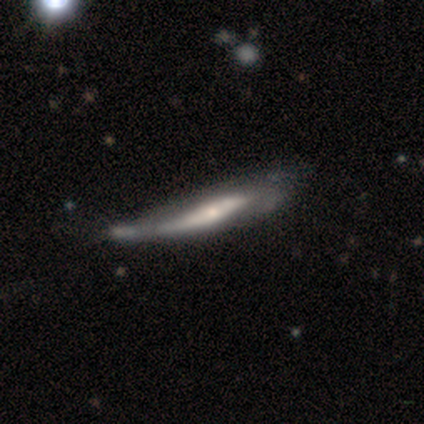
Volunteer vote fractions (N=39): A featured or disk galaxy (67%) viewed edge-on (58%) with a rounded central bulge (53%). Merging: minor disturbance (41%).